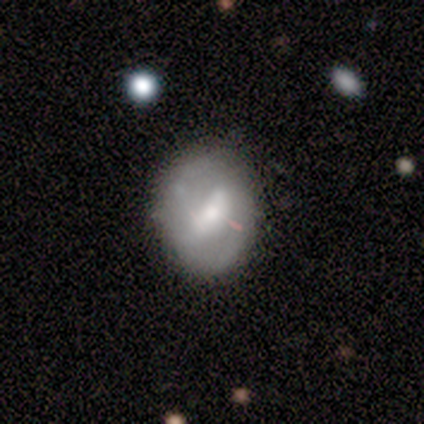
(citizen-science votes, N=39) smooth-or-featured: featured or disk: 64% | smooth: 36% | star or artifact: 0%
  disk-edge-on: no: 92% | yes: 8%
    bar: strong: 43% | weak: 39% | no: 17%
    has-spiral-arms: no: 65% | yes: 35%
    bulge-size: moderate: 48% | small: 26% | large: 13% | none: 9% | dominant: 4%
  merging: none: 67% | minor disturbance: 18% | major disturbance: 15% | merger: 0%